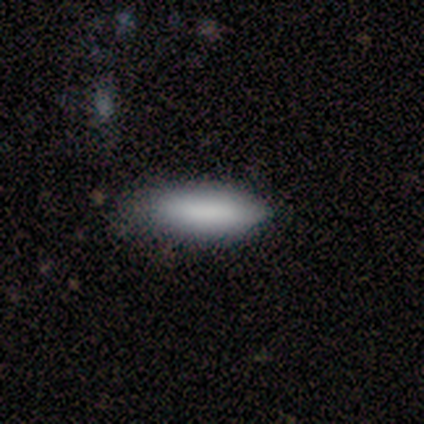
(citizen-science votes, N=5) Volunteers were most divided on "how rounded" (2-way tie): in between: 50%, cigar-shaped: 50%, round: 0%. More confident: smooth or featured — smooth (80%); merging — none (60%).